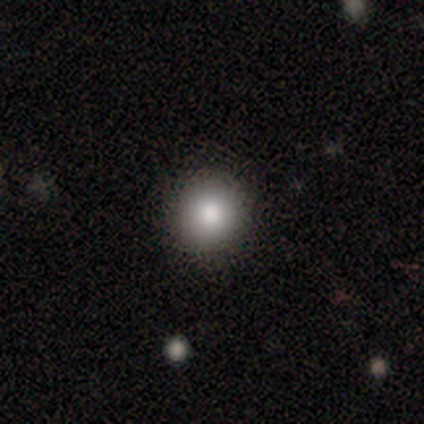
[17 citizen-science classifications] A smooth galaxy with no disk features (76%) that is round (85%).

Vote fractions:
- Smooth or featured? smooth: 76% / star or artifact: 18% / featured or disk: 6%
- How rounded? round: 85% / in between: 15% / cigar-shaped: 0%
- Merging? none: 86% / minor disturbance: 7% / major disturbance: 7% / merger: 0%